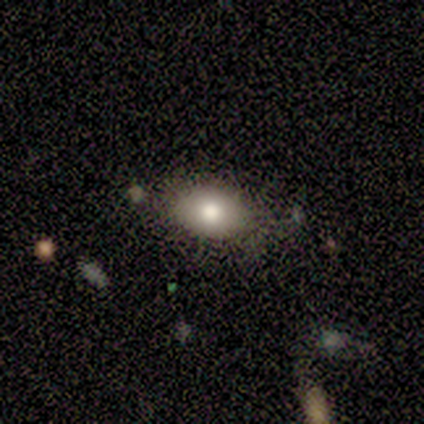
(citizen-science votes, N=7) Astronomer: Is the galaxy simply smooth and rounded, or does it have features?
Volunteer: smooth — 86%.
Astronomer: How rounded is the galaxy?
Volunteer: in between — 83%.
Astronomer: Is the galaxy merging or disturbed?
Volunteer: none — 86%.